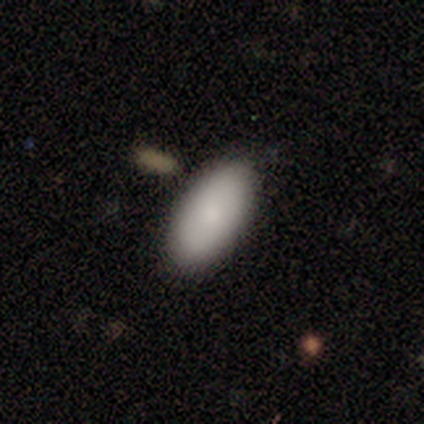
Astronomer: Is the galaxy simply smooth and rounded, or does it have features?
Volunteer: smooth — 83%.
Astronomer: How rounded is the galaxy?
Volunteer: in between — 100%.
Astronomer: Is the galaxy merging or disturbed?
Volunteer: none — 100%.